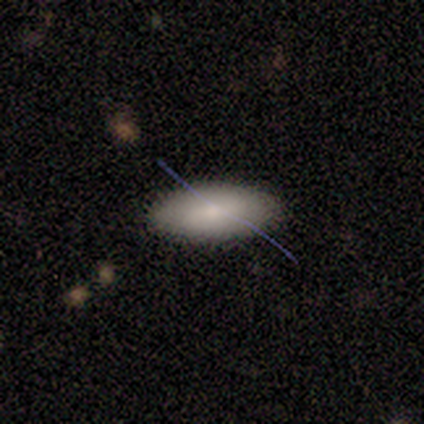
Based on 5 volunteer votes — Smooth or featured? 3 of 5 (60%) said featured or disk. Edge-on disk? 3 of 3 (100%) said no. Bar? 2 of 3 (67%) said strong. Spiral arms? 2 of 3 (67%) said no. Bulge size? 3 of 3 (100%) said small. Merging? 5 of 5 (100%) said none.